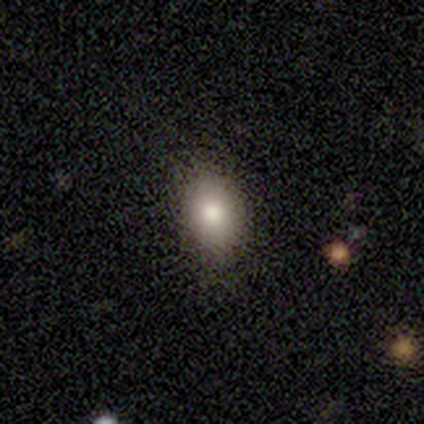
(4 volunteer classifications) Smooth or featured?
  - smooth: 100% *
  - featured or disk: 0%
  - star or artifact: 0%
How rounded?
  - in between: 75% *
  - round: 25%
  - cigar-shaped: 0%
Merging?
  - none: 100% *
  - minor disturbance: 0%
  - major disturbance: 0%
  - merger: 0%